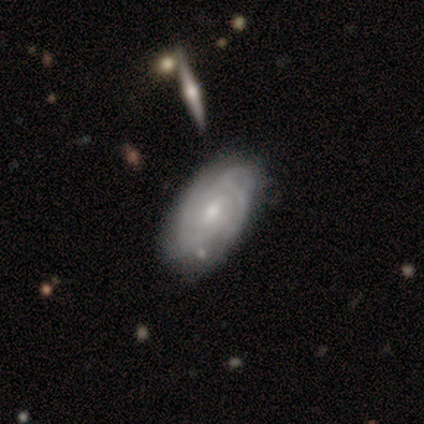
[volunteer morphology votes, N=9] A featured or disk galaxy (78%) with a weak bar (83%), tight (100%) spiral arms (100%) and a moderate central bulge (83%). Merging: none (78%).